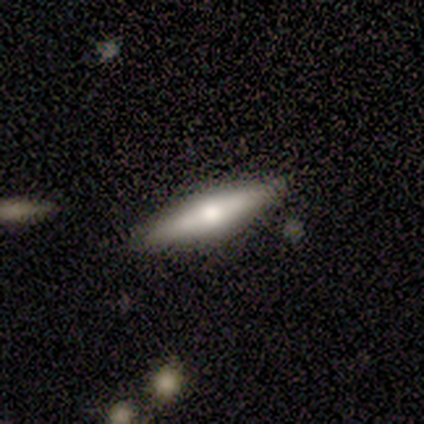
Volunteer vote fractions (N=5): A featured or disk galaxy (60%) viewed edge-on (67%) with no central bulge (100%).

Vote fractions:
- Smooth or featured? featured or disk: 60% / smooth: 40% / star or artifact: 0%
- Edge-on disk? yes: 67% / no: 33%
- Edge-on bulge? none: 100% / boxy: 0% / rounded: 0%
- Merging? none: 100% / minor disturbance: 0% / major disturbance: 0% / merger: 0%